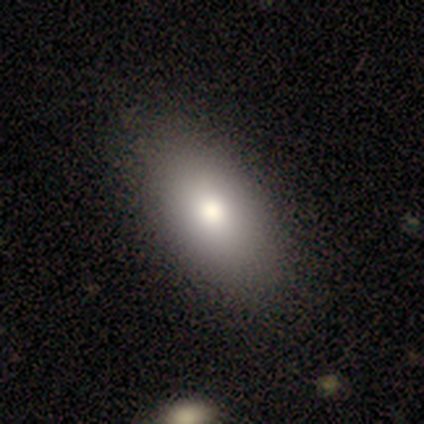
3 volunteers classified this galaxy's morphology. smooth_or_featured: smooth (p=1.00)
how_rounded: in between (p=1.00)
merging: none (p=1.00)